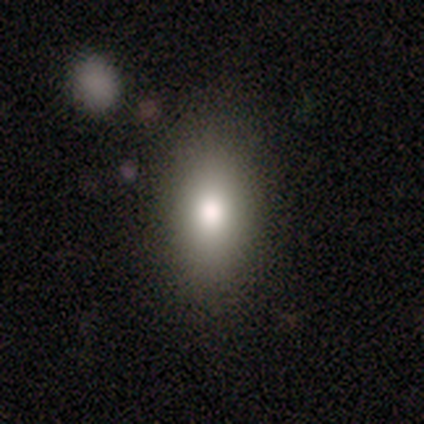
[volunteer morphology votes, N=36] This is clearly a smooth galaxy (89%). How rounded: clearly in between (91%). Merging: clearly none (94%).